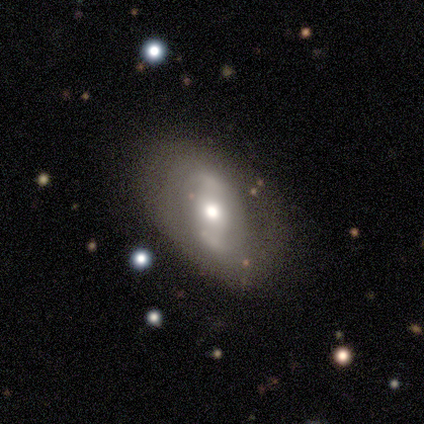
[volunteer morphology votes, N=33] featured or disk 52%, smooth 39%, star or artifact 9%. Down the decision tree: edge-on disk — no (94%); bar — weak (56%); spiral arms — yes (50%, tied with no); spiral arm count — 2 (62%); spiral winding — tight (62%); bulge size — moderate (56%); merging — none (67%).